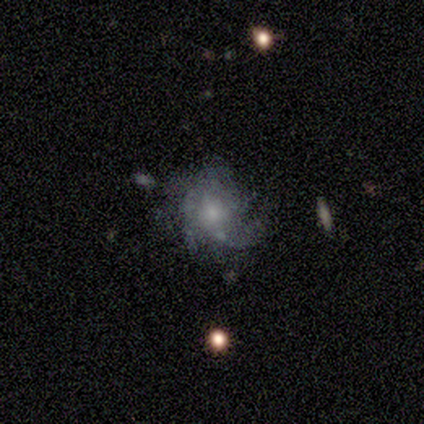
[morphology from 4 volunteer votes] smooth-or-featured: featured or disk: 100% | smooth: 0% | star or artifact: 0%
  disk-edge-on: no: 100% | yes: 0%
    bar: no: 75% | weak: 25% | strong: 0%
    has-spiral-arms: yes: 100% | no: 0%
      spiral-winding: loose: 50% | tight: 25% | medium: 25%
      spiral-arm-count: can't tell: 50% | 3: 25% | more than 4: 25% | 1: 0% | 2: 0% | 4: 0%
    bulge-size: small: 75% | moderate: 25% | dominant: 0% | large: 0% | none: 0%
  merging: none: 100% | minor disturbance: 0% | major disturbance: 0% | merger: 0%